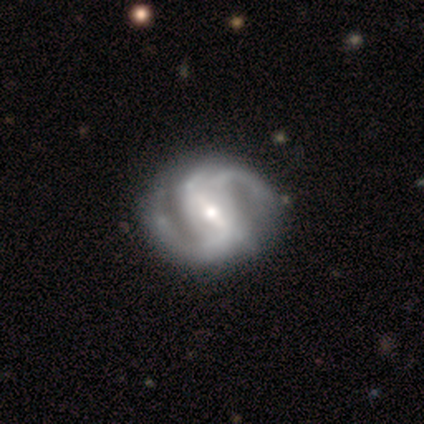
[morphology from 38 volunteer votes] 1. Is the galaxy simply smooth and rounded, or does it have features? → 87% featured or disk, 8% smooth, 5% star or artifact.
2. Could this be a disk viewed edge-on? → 100% no, 0% yes.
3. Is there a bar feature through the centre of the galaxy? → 58% strong, 30% weak, 12% no.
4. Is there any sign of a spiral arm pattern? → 100% yes, 0% no.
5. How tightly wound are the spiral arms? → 52% medium, 27% loose, 21% tight.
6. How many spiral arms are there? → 82% 2, 9% 3, 9% 4, 0% 1, 0% more than 4, 0% can't tell.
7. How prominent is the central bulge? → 64% moderate, 30% small, 6% large, 0% dominant, 0% none.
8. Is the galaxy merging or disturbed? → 47% none, 17% minor disturbance, 6% merger, 3% major disturbance.